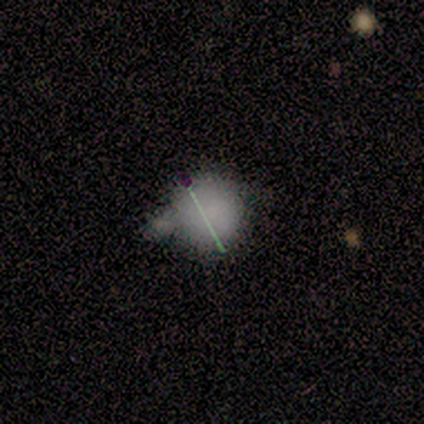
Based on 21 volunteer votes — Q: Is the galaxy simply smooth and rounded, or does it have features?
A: smooth — 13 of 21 (62%).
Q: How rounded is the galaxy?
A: round — 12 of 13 (92%).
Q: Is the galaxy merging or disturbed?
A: none — 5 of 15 (33%, tied with minor disturbance).